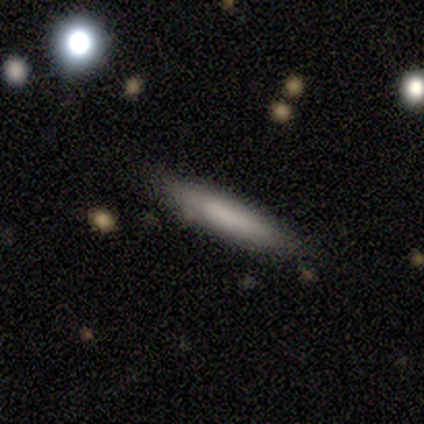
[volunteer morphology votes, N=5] Smooth or featured? smooth (60%)
How rounded? cigar-shaped (67%)
Merging? none (80%)